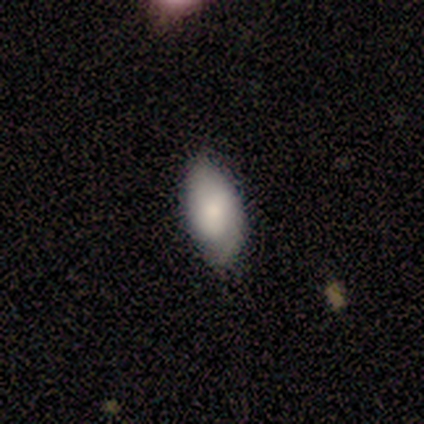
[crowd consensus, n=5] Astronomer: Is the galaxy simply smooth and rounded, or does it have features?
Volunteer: smooth — 80%.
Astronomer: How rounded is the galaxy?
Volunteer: in between — 100%.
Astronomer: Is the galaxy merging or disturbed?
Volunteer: none — 60% (runner-up: minor disturbance, 40%).